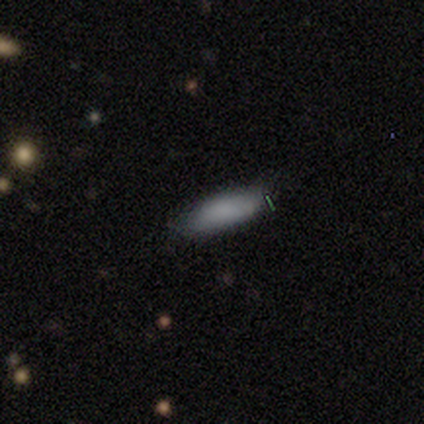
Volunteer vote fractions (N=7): Volunteers were most divided on "smooth or featured": smooth: 57%, star or artifact: 29%, featured or disk: 14%. More confident: merging — minor disturbance (80%); how rounded — in between (75%).